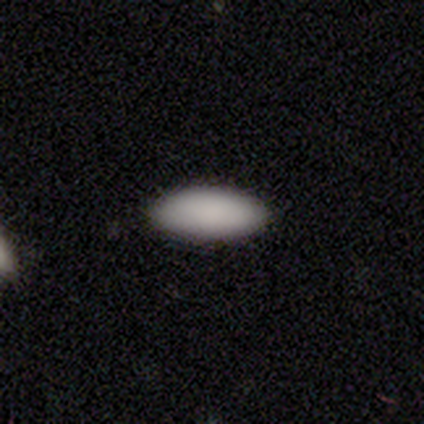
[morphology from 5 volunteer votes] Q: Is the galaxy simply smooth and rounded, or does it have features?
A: smooth — 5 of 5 (100%).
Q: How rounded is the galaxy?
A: in between — 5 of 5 (100%).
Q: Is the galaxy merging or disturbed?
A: none — 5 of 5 (100%).